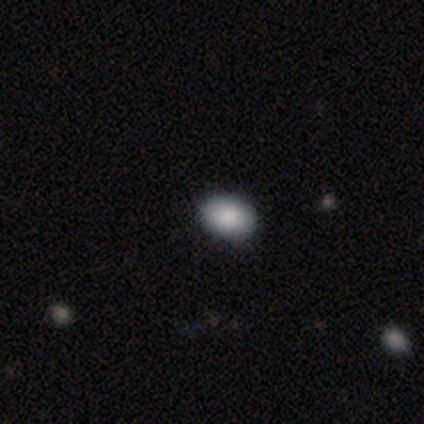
smooth_or_featured: smooth (p=0.80) [alt: featured or disk p=0.20]
how_rounded: in between (p=0.75) [alt: round p=0.25]
merging: none (p=1.00)